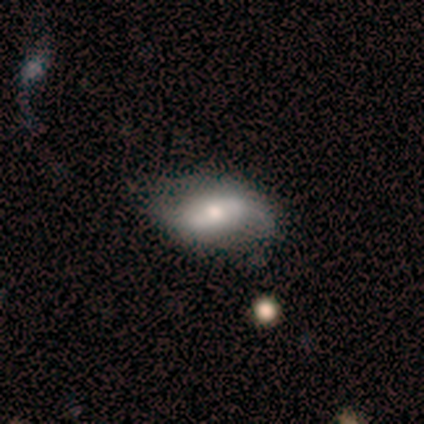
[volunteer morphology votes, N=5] A smooth galaxy with no disk features (60%) that is in between round and cigar-shaped (67%). Merging: none (60%).